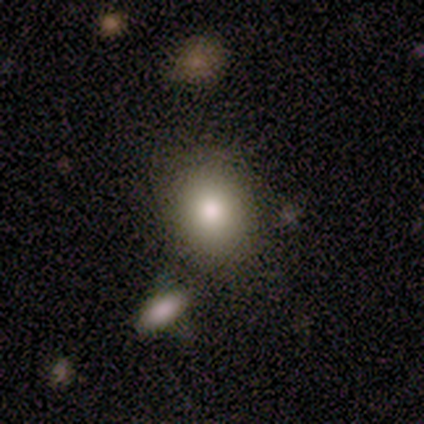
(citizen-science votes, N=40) Q: Smooth or featured?
A: smooth (75%); runner-up: star or artifact (15%)
Q: How rounded?
A: round (60%); runner-up: in between (40%)
Q: Merging?
A: none (82%); runner-up: minor disturbance (9%)